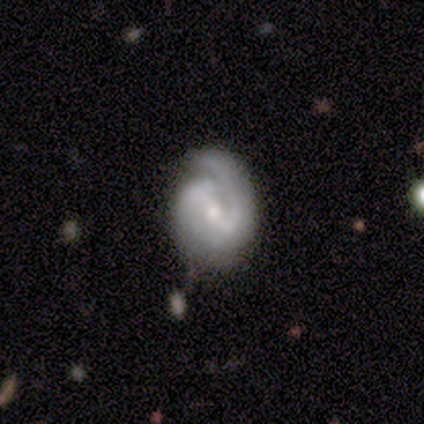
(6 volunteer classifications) Smooth or featured?
  - featured or disk: 83% *
  - smooth: 17%
  - star or artifact: 0%
Edge-on disk?
  - no: 100% *
  - yes: 0%
Bar?
  - strong: 40% * (tied)
  - weak: 40% * (tied)
  - no: 20%
Spiral arms?
  - yes: 100% *
  - no: 0%
Spiral winding?
  - tight: 60% *
  - medium: 20%
  - loose: 20%
Spiral arm count?
  - 2: 60% *
  - can't tell: 40%
  - 1: 0%
  - 3: 0%
  - 4: 0%
  - more than 4: 0%
Bulge size?
  - small: 100% *
  - dominant: 0%
  - large: 0%
  - moderate: 0%
  - none: 0%
Merging?
  - none: 83% *
  - major disturbance: 17%
  - minor disturbance: 0%
  - merger: 0%